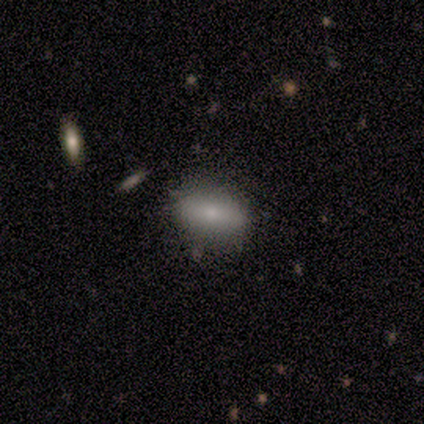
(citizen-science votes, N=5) Smooth or featured: smooth — 80% (featured or disk — 20%)
How rounded: in between — 75% (cigar-shaped — 25%)
Merging: none — 100%